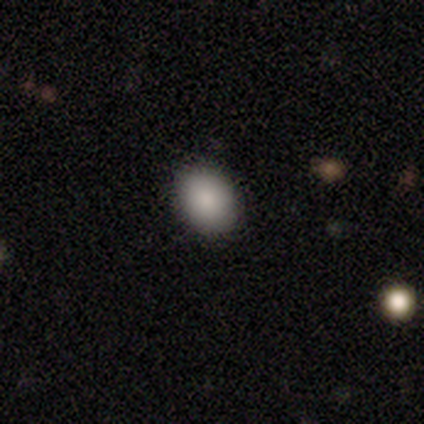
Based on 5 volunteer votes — Volunteers were most divided on "how rounded": round: 80%, in between: 20%, cigar-shaped: 0%. More confident: smooth or featured — smooth (100%); merging — none (80%).